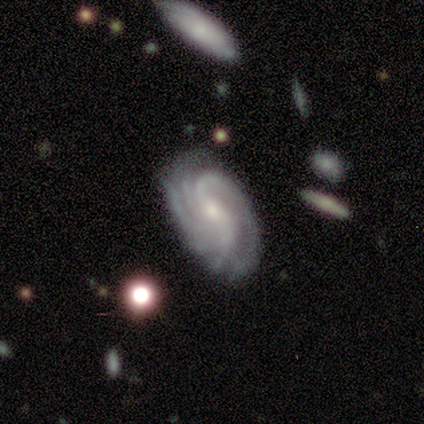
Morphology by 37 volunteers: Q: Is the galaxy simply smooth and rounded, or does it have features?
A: featured or disk — 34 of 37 (92%).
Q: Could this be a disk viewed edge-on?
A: no — 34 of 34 (100%).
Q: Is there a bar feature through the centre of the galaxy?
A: no — 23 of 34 (68%).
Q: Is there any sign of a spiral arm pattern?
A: yes — 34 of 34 (100%).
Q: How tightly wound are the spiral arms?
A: tight — 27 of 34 (79%).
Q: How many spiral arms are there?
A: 4 — 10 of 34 (29%, tied with more than 4 and can't tell).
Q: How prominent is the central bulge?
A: small — 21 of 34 (62%).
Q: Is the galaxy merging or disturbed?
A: none — 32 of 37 (86%).